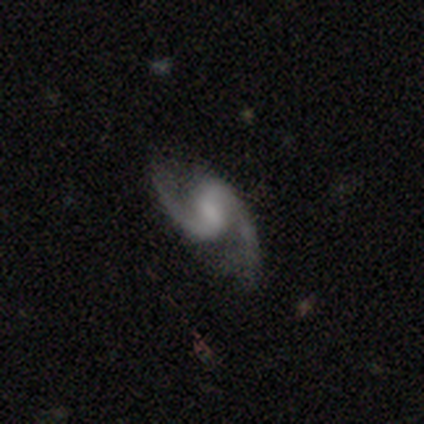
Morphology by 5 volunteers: type=featured or disk (100%); edge-on=no (100%); bar=weak (60%); spiral arms=yes (100%); winding=loose (60%); arm count=2 (100%); bulge=moderate (40%, tied with small); merging=none (80%).